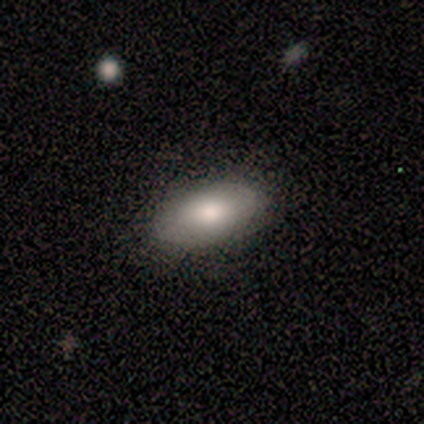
smooth 100%, featured or disk 0%, star or artifact 0%. Down the decision tree: how rounded — in between (100%); merging — none (100%).